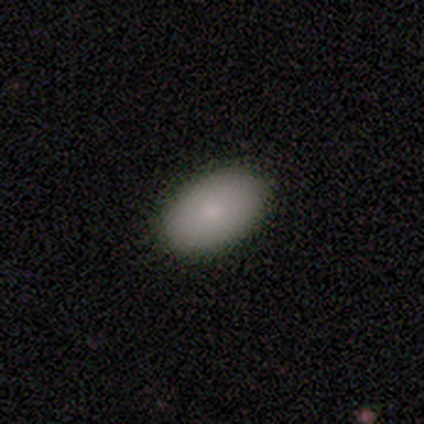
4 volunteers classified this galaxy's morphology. This is clearly a smooth galaxy (100%). How rounded: clearly in between (100%). Merging: clearly none (100%).